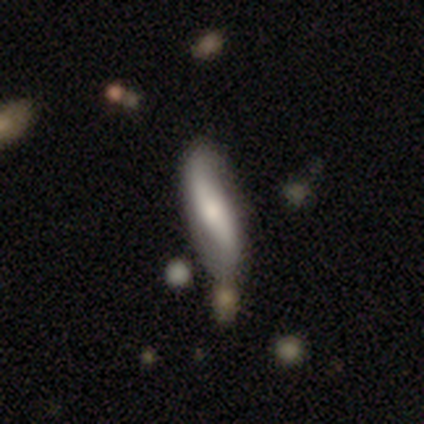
Smooth or featured?
  - featured or disk: 60% *
  - smooth: 40%
  - star or artifact: 0%
Edge-on disk?
  - no: 100% *
  - yes: 0%
Bar?
  - strong: 67% *
  - no: 33%
  - weak: 0%
Spiral arms?
  - yes: 100% *
  - no: 0%
Spiral winding?
  - loose: 100% *
  - tight: 0%
  - medium: 0%
Spiral arm count?
  - 2: 100% *
  - 1: 0%
  - 3: 0%
  - 4: 0%
  - more than 4: 0%
  - can't tell: 0%
Bulge size?
  - large: 67% *
  - moderate: 33%
  - dominant: 0%
  - small: 0%
  - none: 0%
Merging?
  - none: 60% *
  - minor disturbance: 40%
  - major disturbance: 0%
  - merger: 0%